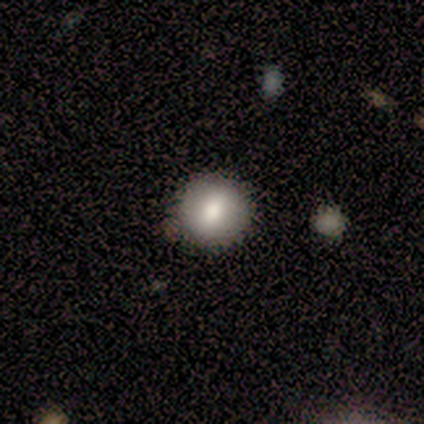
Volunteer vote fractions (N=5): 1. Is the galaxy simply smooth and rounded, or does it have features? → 100% smooth, 0% featured or disk, 0% star or artifact.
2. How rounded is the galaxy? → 80% round, 20% in between, 0% cigar-shaped.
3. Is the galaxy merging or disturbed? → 80% none, 20% minor disturbance, 0% major disturbance, 0% merger.